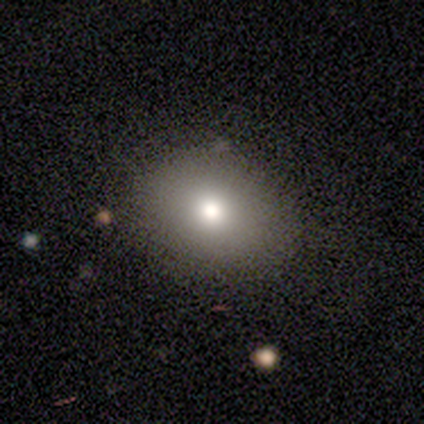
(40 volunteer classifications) Smooth or featured? smooth (82%)
How rounded? in between (52%)
Merging? none (97%)